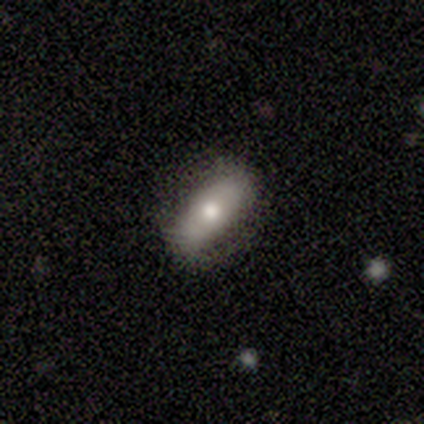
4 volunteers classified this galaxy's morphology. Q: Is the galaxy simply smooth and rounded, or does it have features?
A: smooth — 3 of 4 (75%).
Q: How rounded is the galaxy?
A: in between — 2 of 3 (67%).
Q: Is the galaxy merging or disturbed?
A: none — 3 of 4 (75%).